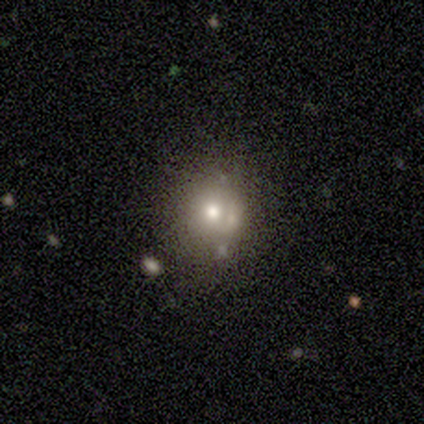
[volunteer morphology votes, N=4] Q: Smooth or featured?
A: smooth (75%); runner-up: star or artifact (25%)
Q: How rounded?
A: round (100%)
Q: Merging?
A: none (100%)